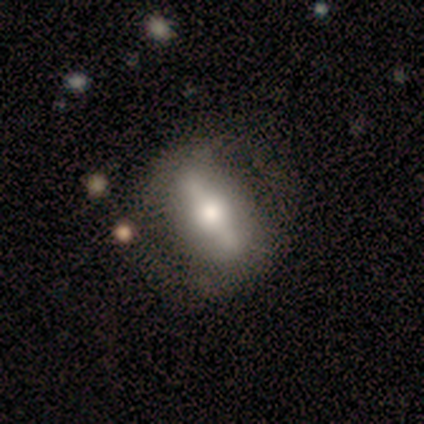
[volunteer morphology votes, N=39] Smooth or featured: featured or disk — 56% (smooth — 38%)
Edge-on disk: no — 59% (yes — 41%)
Bar: strong — 92% (weak — 8%)
Spiral arms: no — 85% (yes — 15%)
Bulge size: moderate — 77% (large — 23%)
Merging: none — 62% (minor disturbance — 16%)